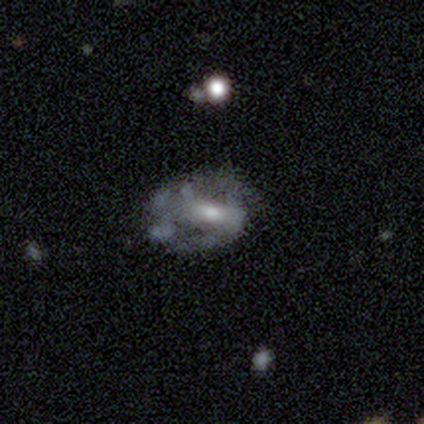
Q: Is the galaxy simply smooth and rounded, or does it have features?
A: featured or disk — 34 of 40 (85%).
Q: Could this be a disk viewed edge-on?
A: no — 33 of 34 (97%).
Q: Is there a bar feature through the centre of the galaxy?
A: strong — 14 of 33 (42%).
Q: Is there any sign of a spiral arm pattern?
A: yes — 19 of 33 (58%).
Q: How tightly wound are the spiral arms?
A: medium — 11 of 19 (58%).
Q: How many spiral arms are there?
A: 2 — 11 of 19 (58%).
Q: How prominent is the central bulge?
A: moderate — 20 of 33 (61%).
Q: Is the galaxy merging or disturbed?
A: none — 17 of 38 (45%).